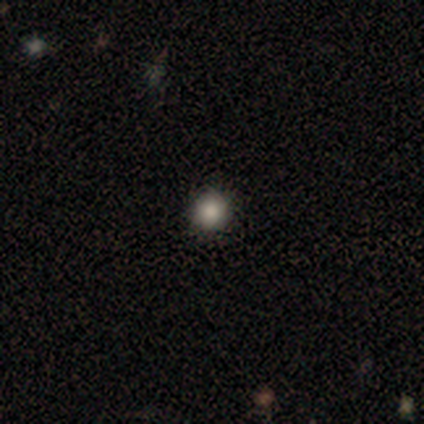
smooth_or_featured: smooth (p=0.80) [alt: star or artifact p=0.20]
how_rounded: round (p=1.00)
merging: none (p=1.00)